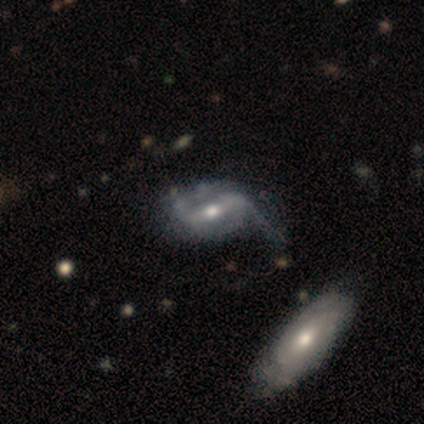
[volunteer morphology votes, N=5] Smooth or featured? 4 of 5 (80%) said featured or disk. Edge-on disk? 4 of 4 (100%) said no. Bar? 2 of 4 (50%, tied with weak) said strong. Spiral arms? 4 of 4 (100%) said yes. Spiral winding? 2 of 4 (50%) said medium. Spiral arm count? 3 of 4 (75%) said 2. Bulge size? 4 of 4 (100%) said moderate. Merging? 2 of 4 (50%) said major disturbance.